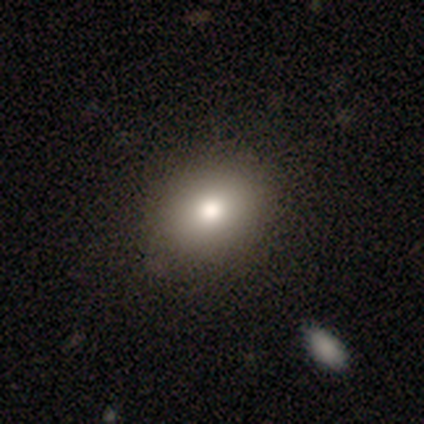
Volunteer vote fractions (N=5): This appears to be a star or artifact, not a galaxy (60%).